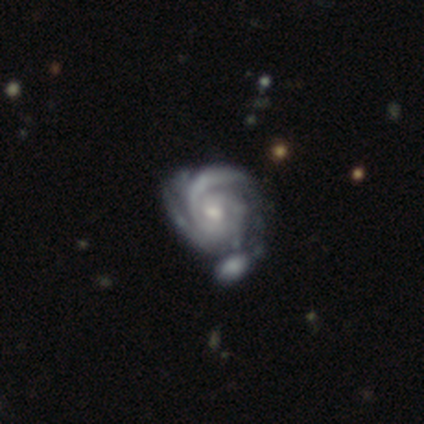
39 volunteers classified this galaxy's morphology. This appears to be a featured or disk galaxy (100%) with no bar (68%), 2 (45%) tight (84%) spiral arms (100%) and a moderate central bulge (53%). Merging: merger (31%).